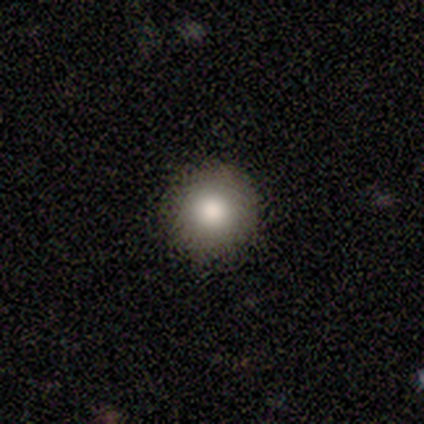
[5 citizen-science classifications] This is clearly a smooth galaxy (80%). How rounded: clearly round (100%). Merging: clearly none (100%).